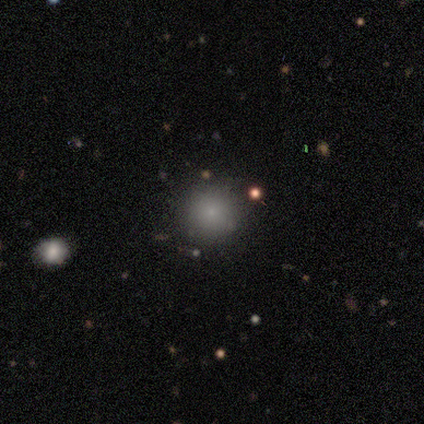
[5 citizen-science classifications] A smooth galaxy with no disk features (80%) that is round (100%). Merging: none (100%).